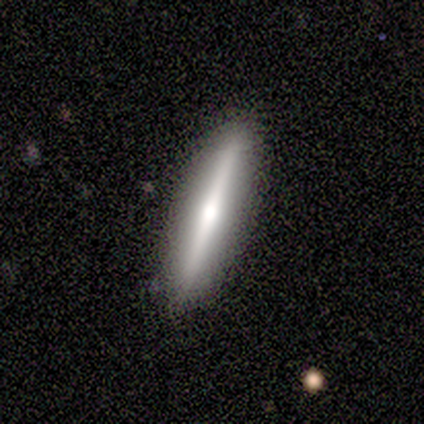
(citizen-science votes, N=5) A featured or disk galaxy (60%) viewed edge-on (100%) with a rounded central bulge (100%).

Vote fractions:
- Smooth or featured? featured or disk: 60% / smooth: 40% / star or artifact: 0%
- Edge-on disk? yes: 100% / no: 0%
- Edge-on bulge? rounded: 100% / boxy: 0% / none: 0%
- Merging? none: 100% / minor disturbance: 0% / major disturbance: 0% / merger: 0%